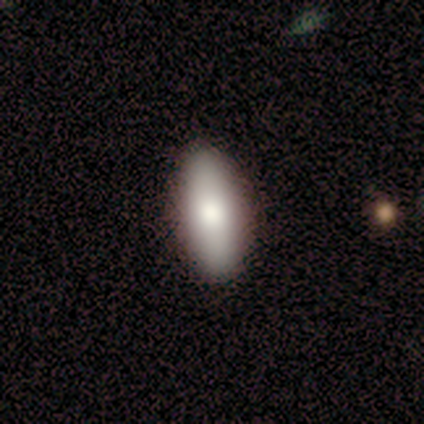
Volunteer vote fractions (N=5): A smooth galaxy with no disk features (60%) that is in between round and cigar-shaped (67%).

Vote fractions:
- Smooth or featured? smooth: 60% / featured or disk: 40% / star or artifact: 0%
- How rounded? in between: 67% / cigar-shaped: 33% / round: 0%
- Merging? none: 100% / minor disturbance: 0% / major disturbance: 0% / merger: 0%